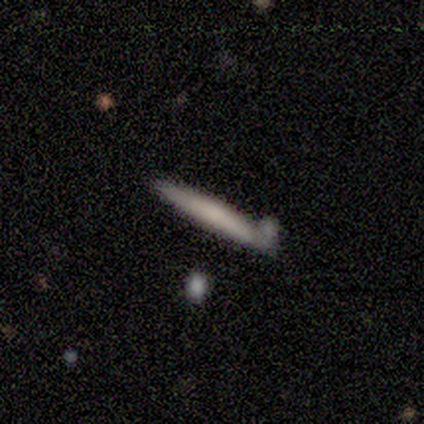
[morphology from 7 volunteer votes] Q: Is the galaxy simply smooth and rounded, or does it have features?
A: smooth — 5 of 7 (71%).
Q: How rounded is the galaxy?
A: cigar-shaped — 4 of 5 (80%).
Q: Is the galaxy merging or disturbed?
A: none — 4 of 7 (57%).